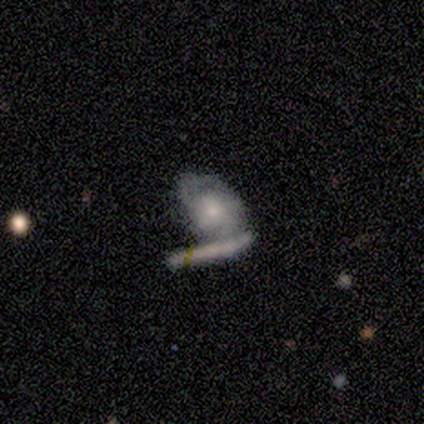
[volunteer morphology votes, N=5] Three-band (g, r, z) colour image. It shows a featured or disk galaxy (80%) with no bar (100%), more than 4 (50%, tied with can't tell) tight (50%, tied with medium) spiral arms (50%, tied with no) and a small central bulge (100%). Merging: merger (60%).